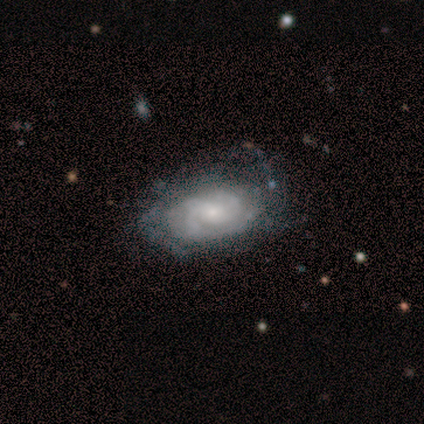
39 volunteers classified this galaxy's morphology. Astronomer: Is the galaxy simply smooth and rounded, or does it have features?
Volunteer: featured or disk — 85%.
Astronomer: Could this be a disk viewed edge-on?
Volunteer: no — 97%.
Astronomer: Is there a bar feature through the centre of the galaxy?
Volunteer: no — 88%.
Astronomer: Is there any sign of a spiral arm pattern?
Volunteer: yes — 97%.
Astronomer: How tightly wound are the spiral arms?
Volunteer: tight — 55% (runner-up: medium, 32%).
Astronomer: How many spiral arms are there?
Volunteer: can't tell — 42% (runner-up: 2, 32%).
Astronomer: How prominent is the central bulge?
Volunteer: small — 62%.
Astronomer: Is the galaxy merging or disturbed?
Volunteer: none — 54% (runner-up: minor disturbance, 36%).